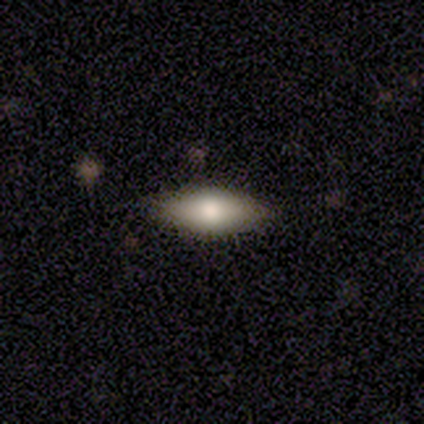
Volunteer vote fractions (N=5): This appears to be a smooth galaxy with no disk features (80%) that is in between round and cigar-shaped (100%). Merging: none (80%).